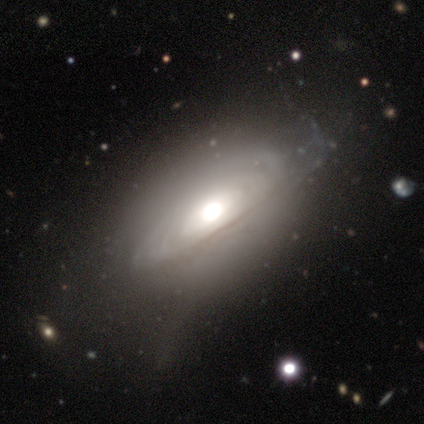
Morphology: type=featured or disk (60%); edge-on=no (100%); bar=no (100%); spiral arms=yes (67%); winding=tight (50%, tied with loose); arm count=can't tell (100%); bulge=moderate (67%); merging=none (60%).